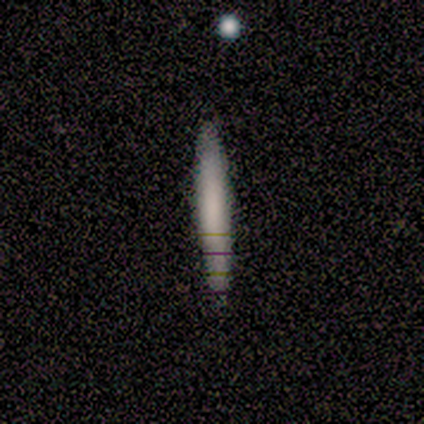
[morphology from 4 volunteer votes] Smooth or featured?
  - smooth: 75% *
  - featured or disk: 25%
  - star or artifact: 0%
How rounded?
  - cigar-shaped: 100% *
  - round: 0%
  - in between: 0%
Merging?
  - none: 100% *
  - minor disturbance: 0%
  - major disturbance: 0%
  - merger: 0%